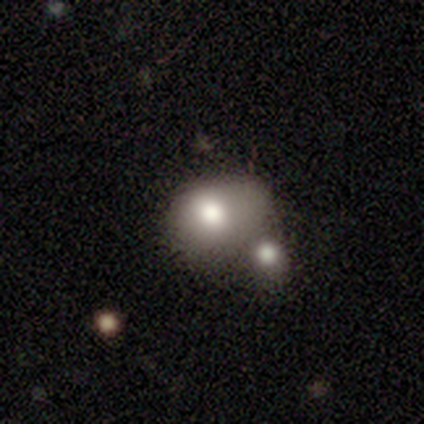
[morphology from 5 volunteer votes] A smooth galaxy with no disk features (80%) that is round (50%, tied with in between).

Vote fractions:
- Smooth or featured? smooth: 80% / featured or disk: 20% / star or artifact: 0%
- How rounded? round: 50% (tied) / in between: 50% (tied) / cigar-shaped: 0%
- Merging? merger: 60% / none: 20% / minor disturbance: 20% / major disturbance: 0%